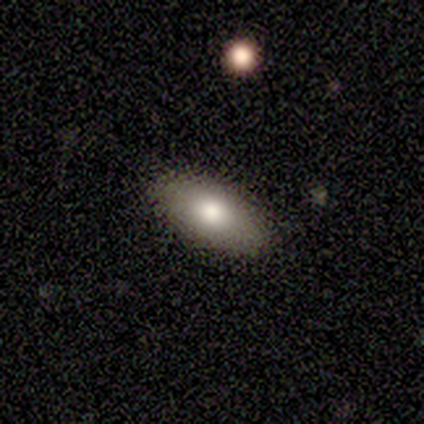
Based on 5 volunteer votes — A smooth galaxy with no disk features (60%) that is in between round and cigar-shaped (100%). Merging: none (100%).